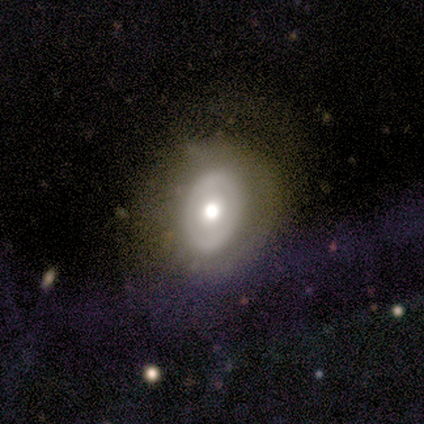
This is possibly a featured or disk galaxy (50%). It is possibly viewed edge-on (50%, tied with no). Edge-on bulge: clearly boxy (100%). Merging: likely major disturbance (67%).